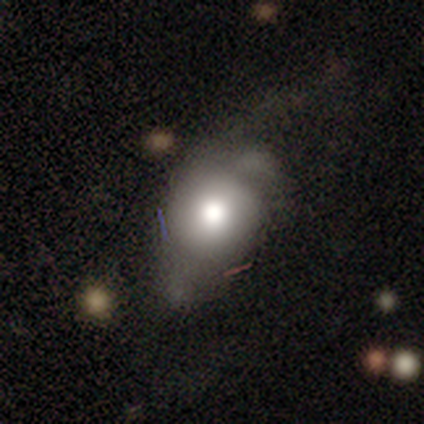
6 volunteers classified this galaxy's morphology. A smooth galaxy with no disk features (50%, tied with star or artifact) that is round (67%). Merging: major disturbance (67%).